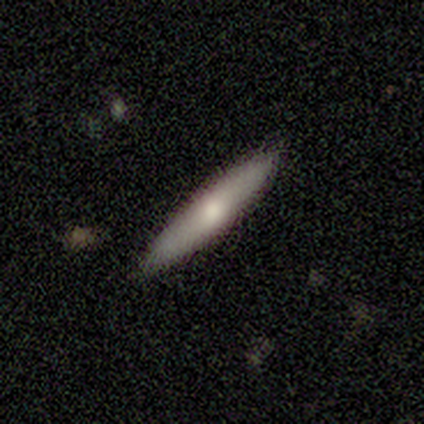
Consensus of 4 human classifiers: Smooth or featured? smooth (100%)
How rounded? cigar-shaped (100%)
Merging? none (100%)